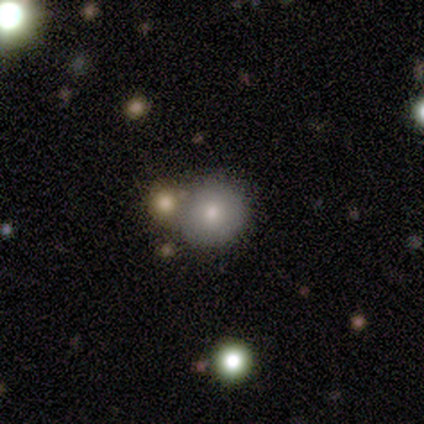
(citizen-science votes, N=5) Smooth or featured? smooth (80%)
How rounded? round (100%)
Merging? none (40%, tied with merger)